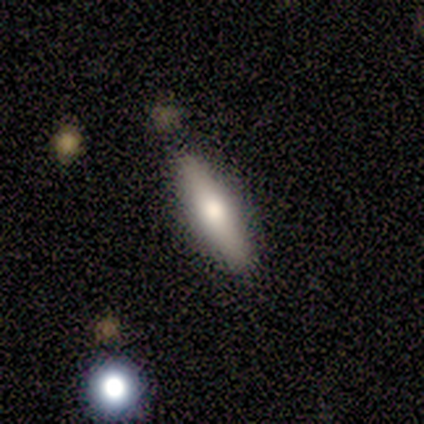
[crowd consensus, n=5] Smooth or featured?
  - featured or disk: 60% *
  - smooth: 40%
  - star or artifact: 0%
Edge-on disk?
  - yes: 100% *
  - no: 0%
Edge-on bulge?
  - rounded: 100% *
  - boxy: 0%
  - none: 0%
Merging?
  - none: 60% *
  - minor disturbance: 40%
  - major disturbance: 0%
  - merger: 0%